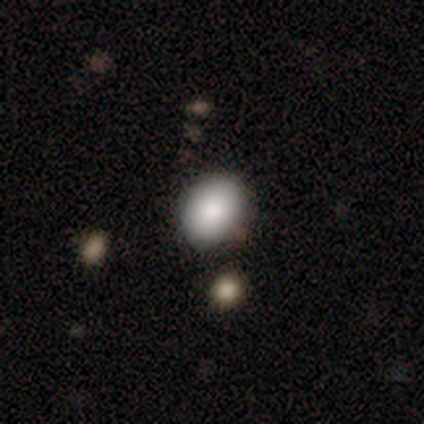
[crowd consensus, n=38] Smooth or featured?
  - smooth: 82% *
  - star or artifact: 11%
  - featured or disk: 8%
How rounded?
  - in between: 61% *
  - round: 39%
  - cigar-shaped: 0%
Merging?
  - none: 50% *
  - merger: 9%
  - minor disturbance: 3%
  - major disturbance: 0%